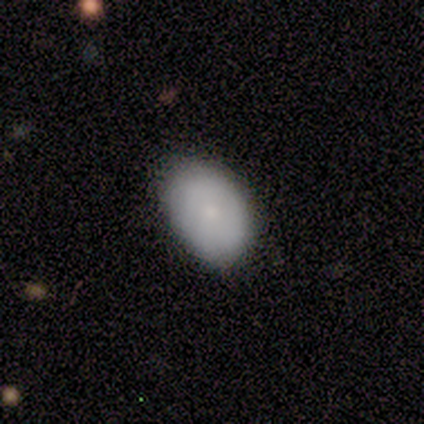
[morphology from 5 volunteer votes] A smooth galaxy with no disk features (100%) that is in between round and cigar-shaped (80%). Merging: none (100%).